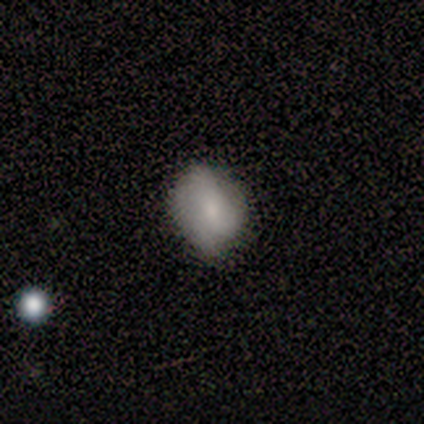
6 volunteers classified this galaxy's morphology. Smooth or featured? smooth (67%)
How rounded? round (50%, tied with in between)
Merging? none (83%)